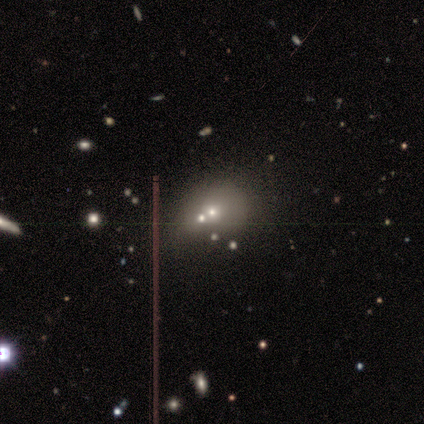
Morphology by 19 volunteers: A smooth galaxy with no disk features (42%) that is round (75%).

Vote fractions:
- Smooth or featured? smooth: 42% / star or artifact: 32% / featured or disk: 26%
- How rounded? round: 75% / in between: 25% / cigar-shaped: 0%
- Merging? merger: 46% / none: 38% / minor disturbance: 8% / major disturbance: 8%